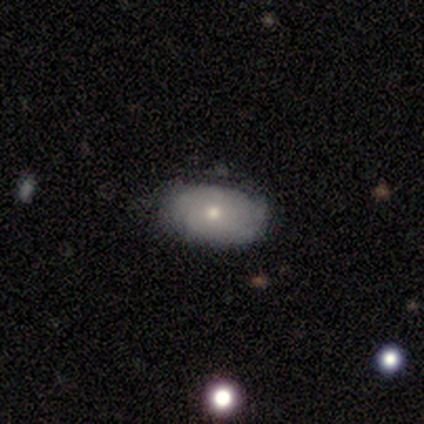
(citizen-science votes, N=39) smooth-or-featured: smooth: 74% | featured or disk: 26% | star or artifact: 0%
  how-rounded: in between: 97% | round: 3% | cigar-shaped: 0%
  merging: none: 54% | minor disturbance: 18% | major disturbance: 3% | merger: 0%